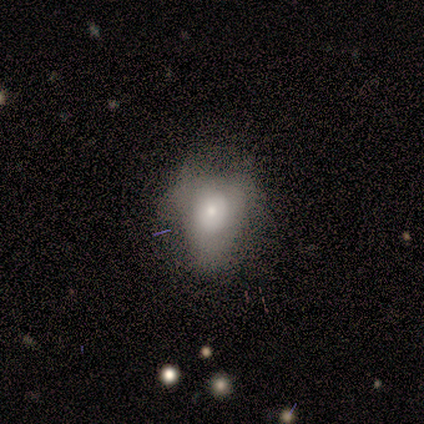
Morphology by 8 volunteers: Q: Smooth or featured?
A: smooth (38%); tied with: star or artifact (38%)
Q: How rounded?
A: in between (100%)
Q: Merging?
A: none (40%); tied with: major disturbance (40%)